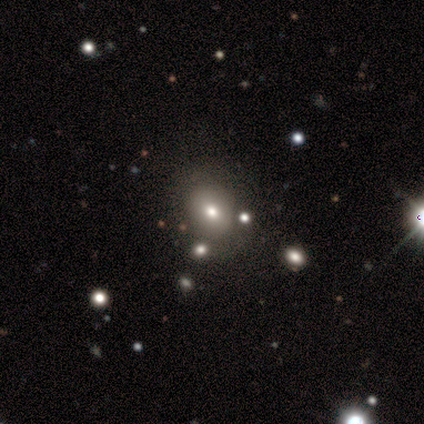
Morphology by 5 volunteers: Volunteers were most divided on "how rounded" (2-way tie): round: 50%, in between: 50%, cigar-shaped: 0%. More confident: smooth or featured — smooth (80%); merging — none (80%).